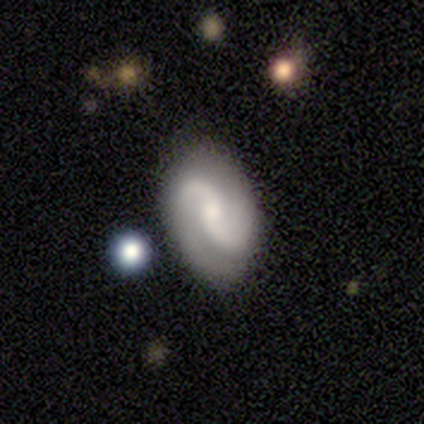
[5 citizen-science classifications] Smooth or featured?
  - featured or disk: 80% *
  - smooth: 20%
  - star or artifact: 0%
Edge-on disk?
  - no: 100% *
  - yes: 0%
Bar?
  - no: 100% *
  - strong: 0%
  - weak: 0%
Spiral arms?
  - yes: 100% *
  - no: 0%
Spiral winding?
  - medium: 50% * (tied)
  - loose: 50% * (tied)
  - tight: 0%
Spiral arm count?
  - 2: 75% *
  - 3: 25%
  - 1: 0%
  - 4: 0%
  - more than 4: 0%
  - can't tell: 0%
Bulge size?
  - moderate: 75% *
  - small: 25%
  - dominant: 0%
  - large: 0%
  - none: 0%
Merging?
  - none: 60% *
  - minor disturbance: 20%
  - major disturbance: 20%
  - merger: 0%